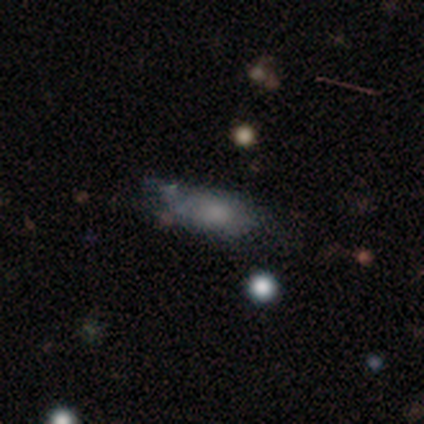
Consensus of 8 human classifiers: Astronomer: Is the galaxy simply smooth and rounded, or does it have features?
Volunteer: smooth — 62%.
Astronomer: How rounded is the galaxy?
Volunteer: in between — 60% (runner-up: cigar-shaped, 40%).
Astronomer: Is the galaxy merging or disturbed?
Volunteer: none — 57%.